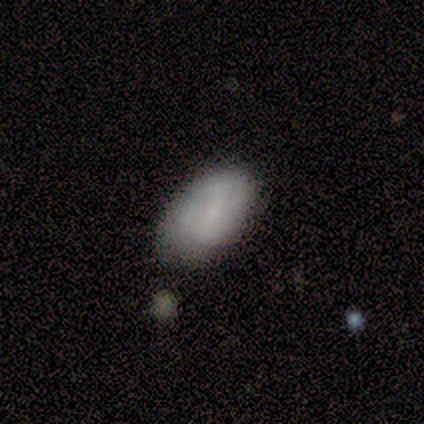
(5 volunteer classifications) Overall: smooth (100%). How rounded: in between (100%). Merging: none (100%).